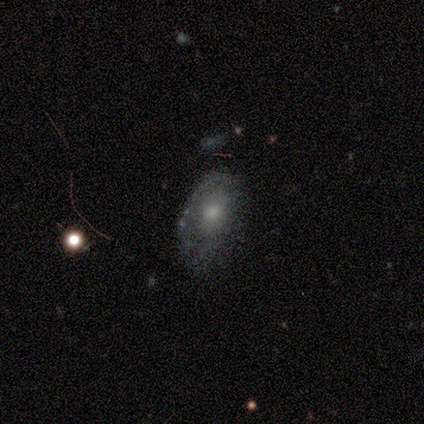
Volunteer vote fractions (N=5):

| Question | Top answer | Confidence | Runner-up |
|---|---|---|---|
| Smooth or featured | featured or disk | 80% | star or artifact (20%) |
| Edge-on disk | no | 100% | — |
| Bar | no | 100% | — |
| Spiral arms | no | 100% | — |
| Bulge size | moderate | 50% | tied: small (50%) |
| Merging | none | 50% | minor disturbance (25%) |